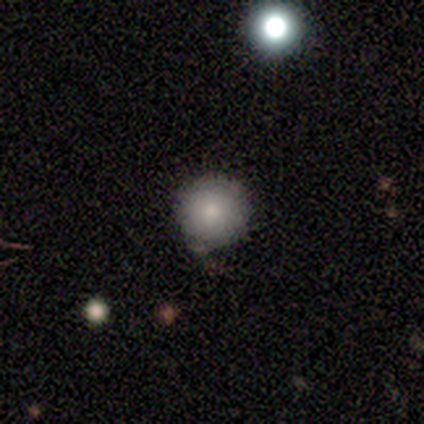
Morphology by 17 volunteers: Overall: smooth (88%). How rounded: round (100%). Merging: none (71%).